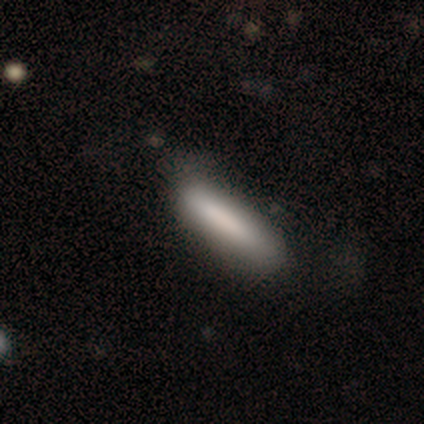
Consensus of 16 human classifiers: A smooth galaxy with no disk features (81%) that is cigar-shaped (92%).

Vote fractions:
- Smooth or featured? smooth: 81% / featured or disk: 12% / star or artifact: 6%
- How rounded? cigar-shaped: 92% / in between: 8% / round: 0%
- Merging? none: 80% / minor disturbance: 7% / major disturbance: 7% / merger: 7%